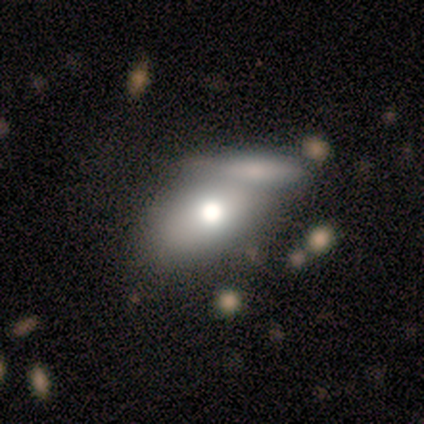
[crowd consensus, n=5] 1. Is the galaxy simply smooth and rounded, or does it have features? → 80% smooth, 20% featured or disk, 0% star or artifact.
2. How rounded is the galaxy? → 100% in between, 0% round, 0% cigar-shaped.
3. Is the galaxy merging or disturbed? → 40% none (tied), 40% merger (tied), 20% minor disturbance, 0% major disturbance.